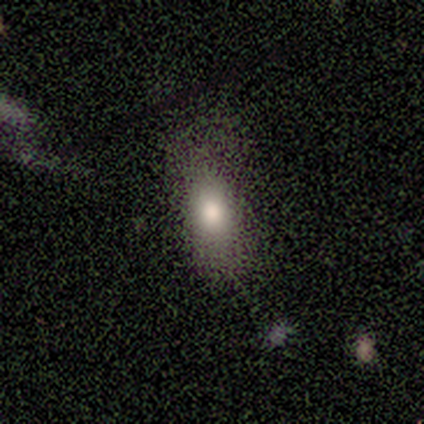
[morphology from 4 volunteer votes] This is likely a smooth galaxy (75%). How rounded: clearly in between (100%). Merging: likely none (67%).